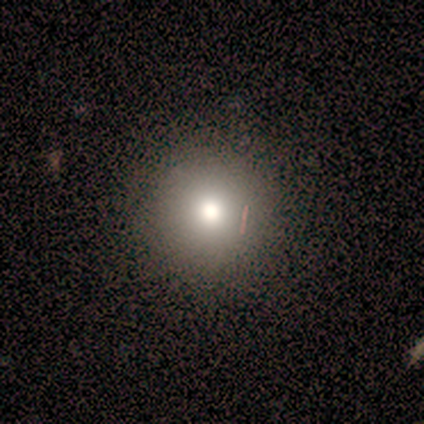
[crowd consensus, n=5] Volunteers were most divided on "how rounded": round: 75%, in between: 25%, cigar-shaped: 0%. More confident: smooth or featured — smooth (80%); merging — none (75%).